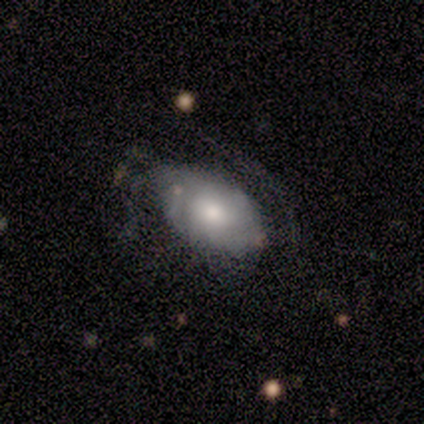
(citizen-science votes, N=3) Smooth or featured?
  - smooth: 33% * (tied)
  - featured or disk: 33% * (tied)
  - star or artifact: 33% * (tied)
How rounded?
  - in between: 100% *
  - round: 0%
  - cigar-shaped: 0%
Merging?
  - none: 100% *
  - minor disturbance: 0%
  - major disturbance: 0%
  - merger: 0%